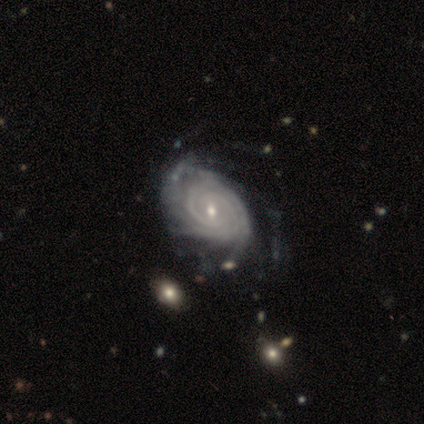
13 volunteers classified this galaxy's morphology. type=featured or disk (92%); edge-on=no (100%); bar=weak (50%); spiral arms=yes (100%); winding=tight (92%); arm count=2 (50%); bulge=small (67%); merging=none (50%).